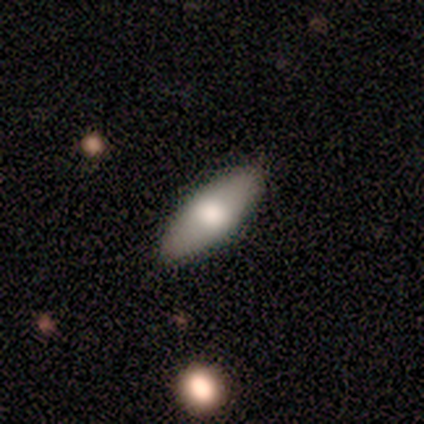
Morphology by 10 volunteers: smooth_or_featured: smooth (p=0.70) [alt: featured or disk p=0.30]
how_rounded: in between (p=0.86) [alt: cigar-shaped p=0.14]
merging: none (p=0.90) [alt: minor disturbance p=0.10]